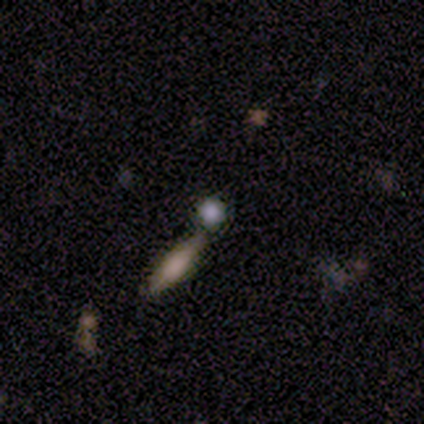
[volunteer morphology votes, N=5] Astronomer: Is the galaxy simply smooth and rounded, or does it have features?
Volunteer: smooth — 80%.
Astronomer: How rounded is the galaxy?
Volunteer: round — 100%.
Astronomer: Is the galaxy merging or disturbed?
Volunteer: none — 80%.